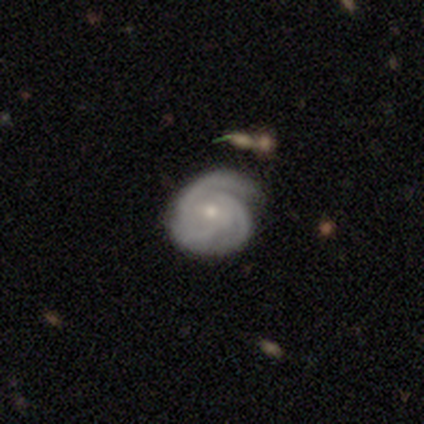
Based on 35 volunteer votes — A featured or disk galaxy (91%) with no bar (65%), 3 (67%) tight (77%) spiral arms (97%) and a small central bulge (77%). Merging: none (68%).